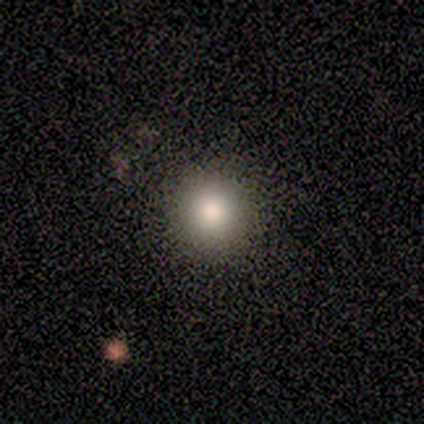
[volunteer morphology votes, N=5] Smooth or featured: smooth — 60% (star or artifact — 40%)
How rounded: round — 100%
Merging: none — 100%